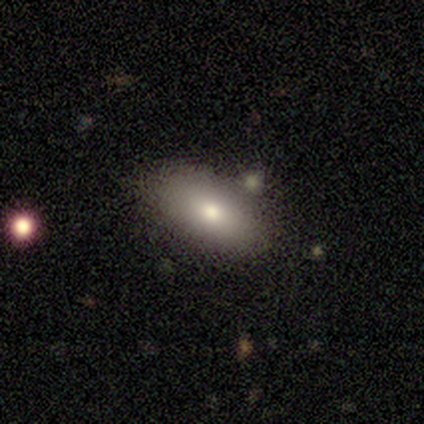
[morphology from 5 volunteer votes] A smooth galaxy with no disk features (60%) that is in between round and cigar-shaped (100%). Merging: none (100%).